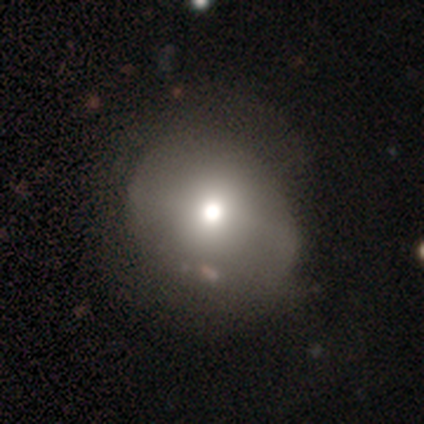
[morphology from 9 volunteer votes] Volunteers were most divided on "merging": none: 78%, minor disturbance: 22%, major disturbance: 0%, merger: 0%. More confident: smooth or featured — smooth (100%); how rounded — round (89%).